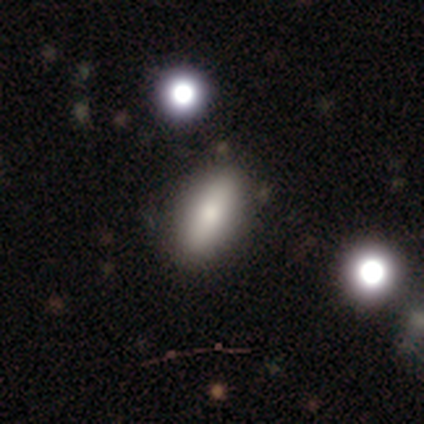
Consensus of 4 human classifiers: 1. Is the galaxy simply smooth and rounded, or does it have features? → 100% smooth, 0% featured or disk, 0% star or artifact.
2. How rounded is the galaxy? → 75% in between, 25% cigar-shaped, 0% round.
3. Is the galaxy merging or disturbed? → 100% none, 0% minor disturbance, 0% major disturbance, 0% merger.